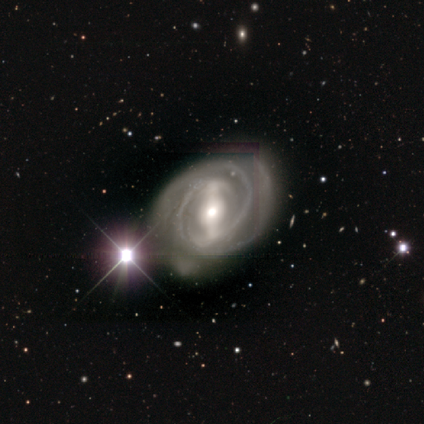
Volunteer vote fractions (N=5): smooth_or_featured: featured or disk (p=0.80) [alt: smooth p=0.20]
disk_edge_on: no (p=1.00)
bar: strong (p=1.00)
has_spiral_arms: yes (p=1.00)
spiral_winding: medium (p=0.50) [alt: tight p=0.25]
spiral_arm_count: 2 (p=0.75) [alt: 3 p=0.25]
bulge_size: large (p=0.50) [alt: moderate p=0.25]
merging: none (p=0.60) [alt: minor disturbance p=0.20]